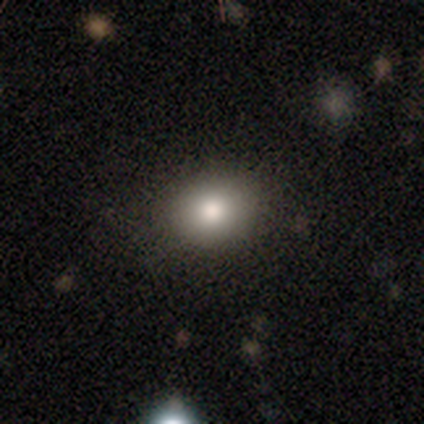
Smooth or featured: smooth — 81% (star or artifact — 13%)
How rounded: round — 71% (in between — 29%)
Merging: none — 90% (minor disturbance — 5%)